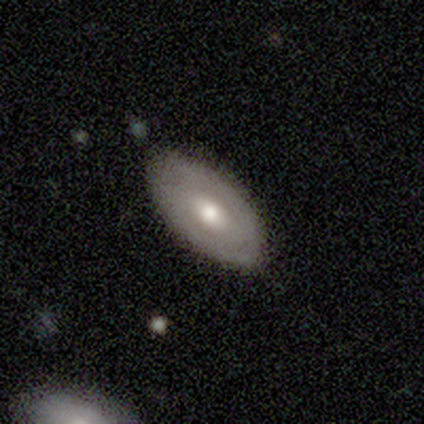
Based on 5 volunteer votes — Smooth or featured? smooth (60%)
How rounded? in between (67%)
Merging? none (80%)